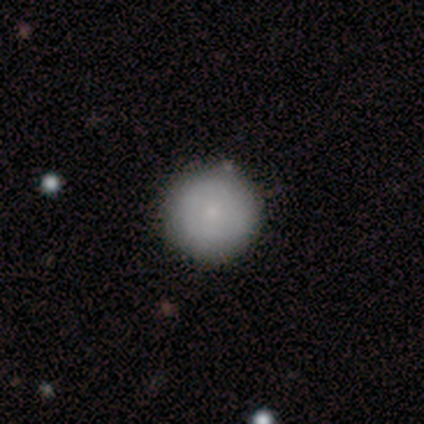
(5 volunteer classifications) smooth-or-featured: smooth: 40% (tied) | star or artifact: 40% (tied) | featured or disk: 20%
  how-rounded: round: 100% | in between: 0% | cigar-shaped: 0%
  merging: none: 67% | minor disturbance: 33% | major disturbance: 0% | merger: 0%